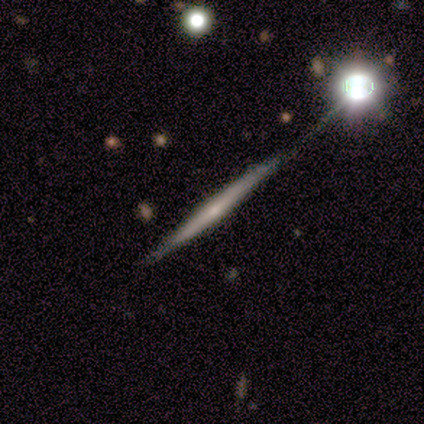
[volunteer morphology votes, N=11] featured or disk 73%, star or artifact 18%, smooth 9%. Down the decision tree: edge-on disk — yes (100%); edge-on bulge — rounded (75%); merging — none (78%).